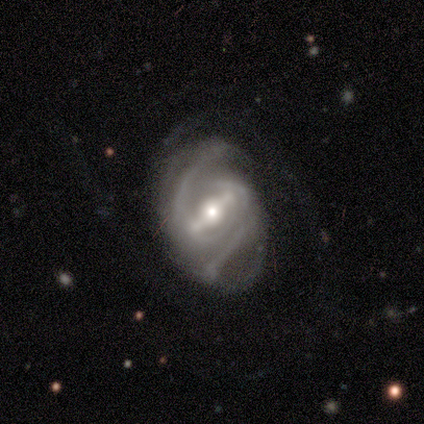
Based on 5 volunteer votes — Morphology: type=featured or disk (80%); edge-on=no (100%); bar=strong (100%); spiral arms=yes (100%); winding=medium (75%); arm count=2 (100%); bulge=moderate (75%); merging=none (40%, tied with major disturbance).